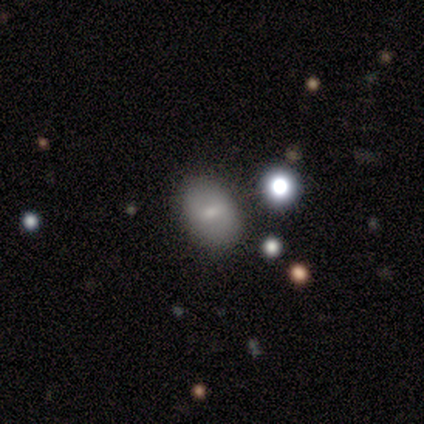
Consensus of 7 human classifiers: Q: Smooth or featured?
A: smooth (57%); runner-up: featured or disk (43%)
Q: How rounded?
A: in between (75%); runner-up: round (25%)
Q: Merging?
A: none (57%); runner-up: minor disturbance (43%)